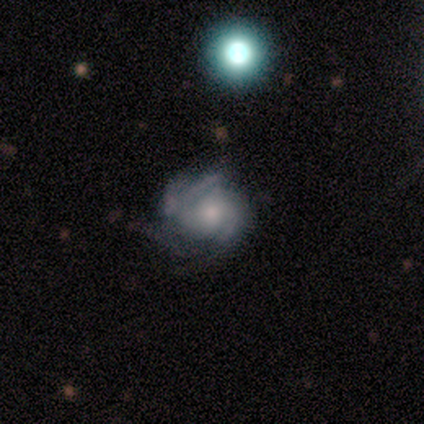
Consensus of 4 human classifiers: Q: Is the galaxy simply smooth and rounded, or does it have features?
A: featured or disk — 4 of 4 (100%).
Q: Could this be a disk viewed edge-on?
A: no — 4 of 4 (100%).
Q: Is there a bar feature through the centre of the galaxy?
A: weak — 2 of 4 (50%, tied with no).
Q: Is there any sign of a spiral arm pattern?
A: yes — 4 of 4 (100%).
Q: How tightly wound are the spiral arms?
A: tight — 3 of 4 (75%).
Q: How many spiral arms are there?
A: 2 — 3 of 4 (75%).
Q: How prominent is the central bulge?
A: moderate — 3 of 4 (75%).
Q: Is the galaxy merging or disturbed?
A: none — 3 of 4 (75%).